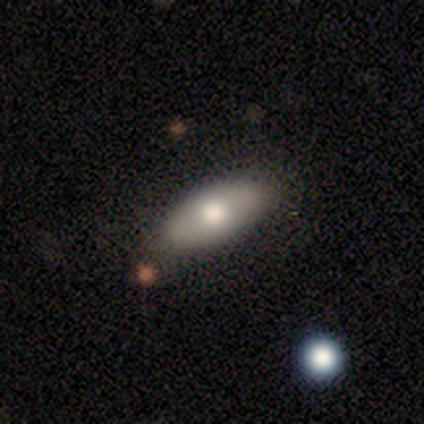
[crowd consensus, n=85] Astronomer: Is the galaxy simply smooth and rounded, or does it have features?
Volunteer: smooth — 75%.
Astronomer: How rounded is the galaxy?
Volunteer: in between — 88%.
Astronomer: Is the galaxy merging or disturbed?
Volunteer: none — 86%.